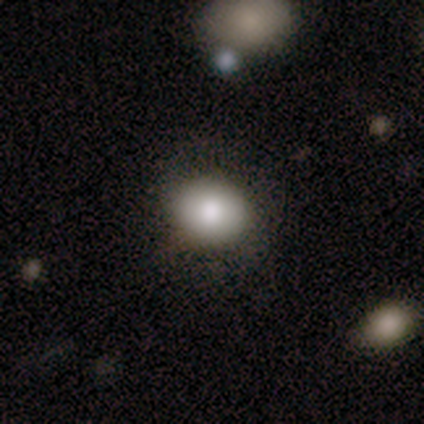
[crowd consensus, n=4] This appears to be a smooth galaxy with no disk features (100%) that is round (100%). Merging: none (75%).